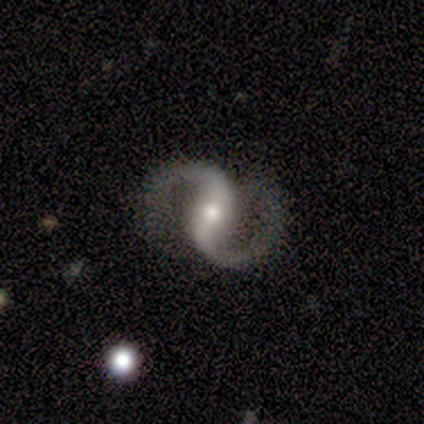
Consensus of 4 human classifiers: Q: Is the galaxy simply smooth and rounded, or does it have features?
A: featured or disk — 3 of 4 (75%).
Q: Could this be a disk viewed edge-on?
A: no — 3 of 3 (100%).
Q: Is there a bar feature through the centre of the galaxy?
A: no — 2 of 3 (67%).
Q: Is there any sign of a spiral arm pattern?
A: yes — 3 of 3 (100%).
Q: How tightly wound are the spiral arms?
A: medium — 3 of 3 (100%).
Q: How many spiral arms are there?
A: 2 — 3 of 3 (100%).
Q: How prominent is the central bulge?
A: moderate — 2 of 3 (67%).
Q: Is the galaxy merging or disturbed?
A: none — 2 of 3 (67%).